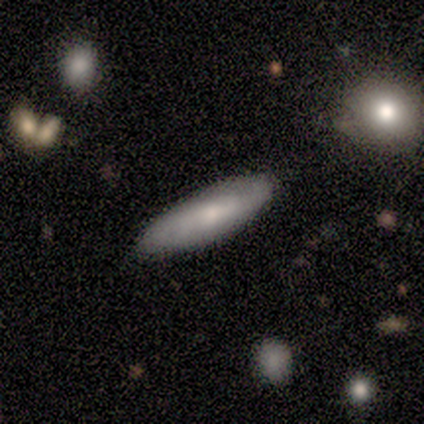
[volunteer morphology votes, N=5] Overall: featured or disk (60%; smooth 40%). Edge-on disk: no (67%; yes 33%). Bar: weak (50%, tied with no). Spiral arms: yes (50%, tied with no). Spiral arm count: can't tell (100%). Spiral winding: tight (100%). Bulge size: small (50%, tied with none). Merging: none (60%; minor disturbance 20%).